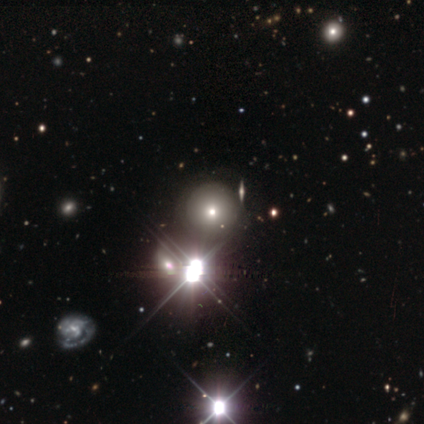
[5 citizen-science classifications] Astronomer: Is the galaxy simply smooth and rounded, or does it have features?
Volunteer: smooth — 80%.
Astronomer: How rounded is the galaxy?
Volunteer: round — 100%.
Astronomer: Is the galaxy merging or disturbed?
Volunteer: none — 100%.